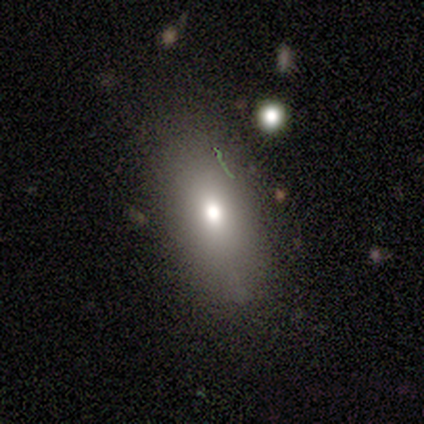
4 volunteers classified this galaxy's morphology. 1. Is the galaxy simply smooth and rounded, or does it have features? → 100% smooth, 0% featured or disk, 0% star or artifact.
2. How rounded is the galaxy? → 100% in between, 0% round, 0% cigar-shaped.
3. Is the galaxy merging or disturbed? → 75% none, 25% minor disturbance, 0% major disturbance, 0% merger.